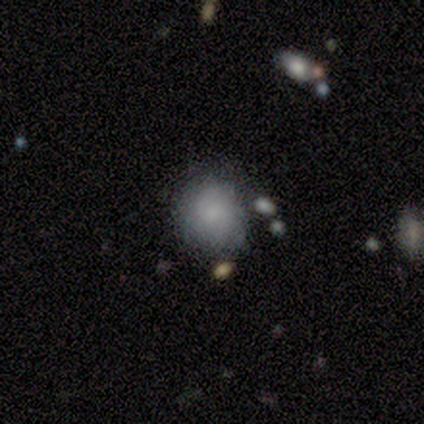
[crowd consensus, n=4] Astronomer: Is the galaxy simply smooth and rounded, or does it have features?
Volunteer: smooth — 100%.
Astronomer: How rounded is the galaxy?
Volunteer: round — 100%.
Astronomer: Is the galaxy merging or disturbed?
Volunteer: none — 100%.